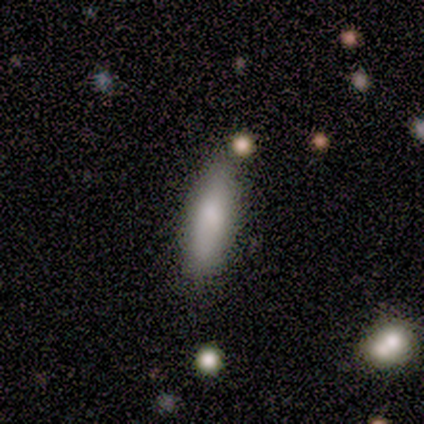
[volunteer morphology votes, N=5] smooth_or_featured: smooth (p=0.80) [alt: featured or disk p=0.20]
how_rounded: in between (p=0.75) [alt: cigar-shaped p=0.25]
merging: none (p=0.80) [alt: minor disturbance p=0.20]